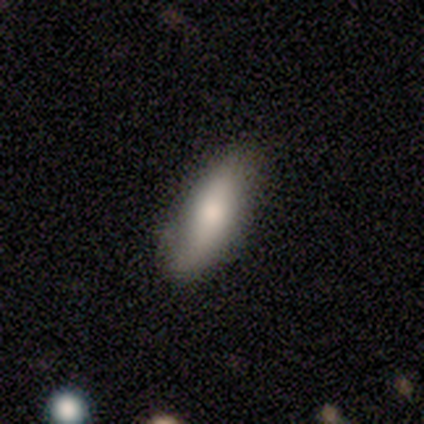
This is clearly a smooth galaxy (86%). How rounded: likely in between (67%). Merging: possibly none (57%).